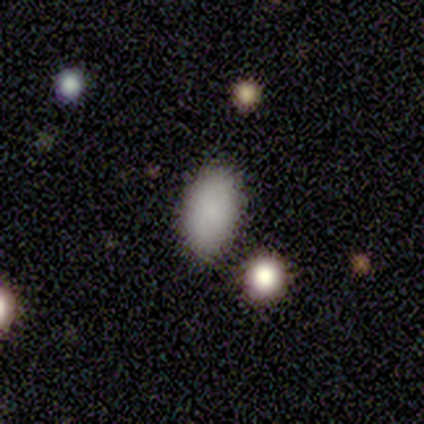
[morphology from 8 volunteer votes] Smooth or featured? smooth (100%)
How rounded? in between (88%)
Merging? none (88%)